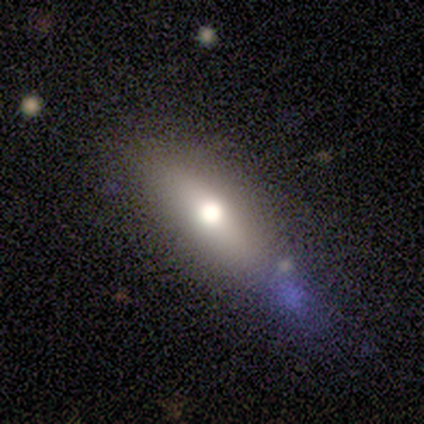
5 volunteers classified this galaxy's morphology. Volunteers were most divided on "how rounded": in between: 67%, cigar-shaped: 33%, round: 0%. More confident: merging — none (100%); smooth or featured — smooth (60%).